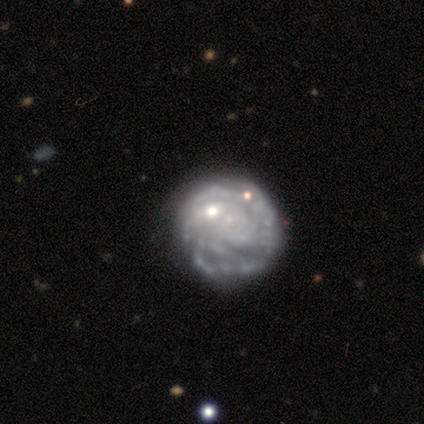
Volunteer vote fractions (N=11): Volunteers were most divided on "spiral arm count": can't tell: 50%, more than 4: 38%, 4: 12%, 1: 0%, 2: 0%, 3: 0%. More confident: edge-on disk — no (100%); spiral winding — tight (100%); spiral arms — yes (89%); smooth or featured — featured or disk (82%); bar — no (78%); merging — none (73%); bulge size — none (67%).